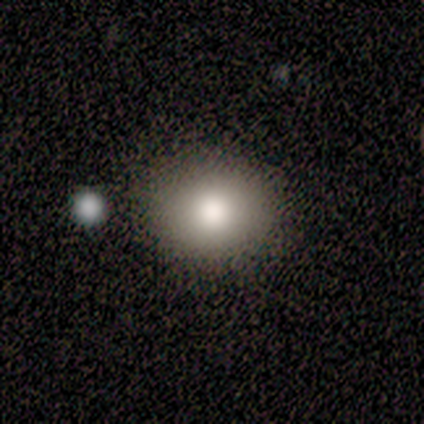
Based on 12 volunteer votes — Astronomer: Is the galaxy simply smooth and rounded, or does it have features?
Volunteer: smooth — 100%.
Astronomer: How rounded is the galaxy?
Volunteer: round — 83%.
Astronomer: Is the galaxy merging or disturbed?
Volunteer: none — 92%.